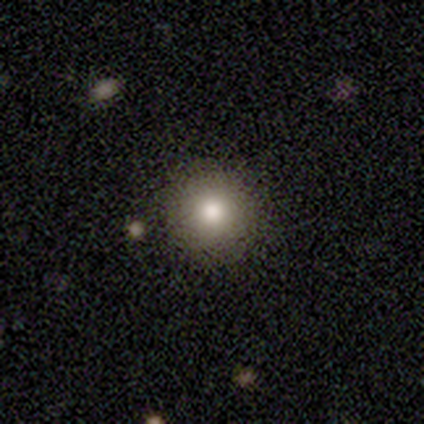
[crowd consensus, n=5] A smooth galaxy with no disk features (60%) that is round (100%).

Vote fractions:
- Smooth or featured? smooth: 60% / featured or disk: 40% / star or artifact: 0%
- How rounded? round: 100% / in between: 0% / cigar-shaped: 0%
- Merging? none: 80% / minor disturbance: 20% / major disturbance: 0% / merger: 0%